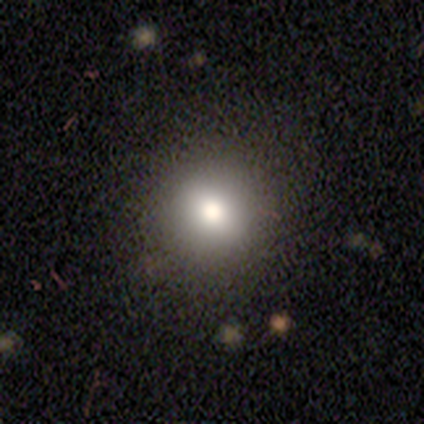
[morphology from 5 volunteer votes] Smooth or featured: smooth — 80% (featured or disk — 20%)
How rounded: round — 100%
Merging: none — 100%